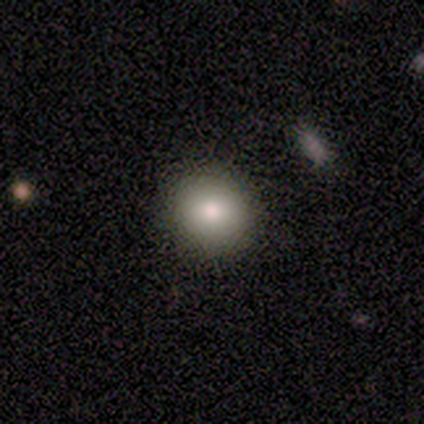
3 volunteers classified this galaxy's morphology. Overall: smooth (67%; featured or disk 33%). How rounded: round (50%, tied with in between). Merging: none (100%).